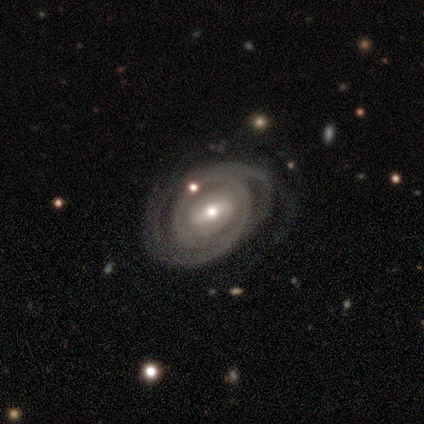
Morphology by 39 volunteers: Overall: featured or disk (87%). Edge-on disk: no (97%). Bar: weak (58%; strong 36%). Spiral arms: yes (100%). Spiral arm count: 2 (64%). Spiral winding: tight (70%). Bulge size: moderate (48%; small 36%). Merging: none (67%).